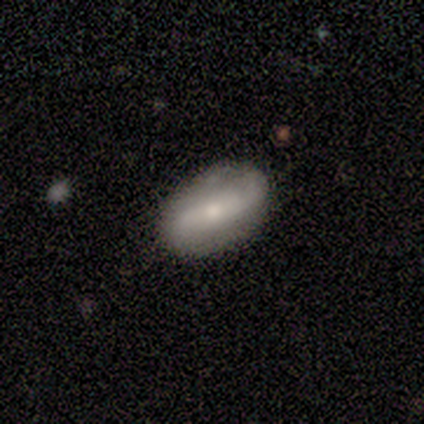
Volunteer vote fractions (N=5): Morphology: type=featured or disk (60%); edge-on=no (100%); bar=strong (67%); spiral arms=yes (100%); winding=loose (100%); arm count=2 (100%); bulge=moderate (100%); merging=none (100%).